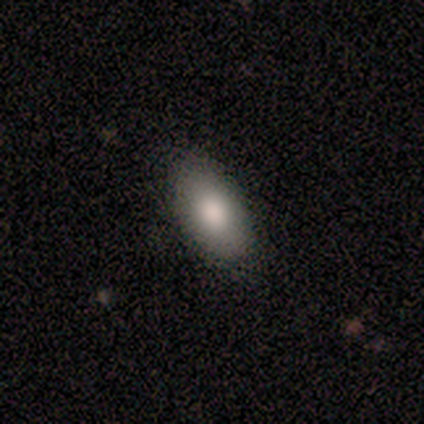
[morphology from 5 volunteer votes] smooth 100%, featured or disk 0%, star or artifact 0%. Down the decision tree: how rounded — in between (60%); merging — none (80%).